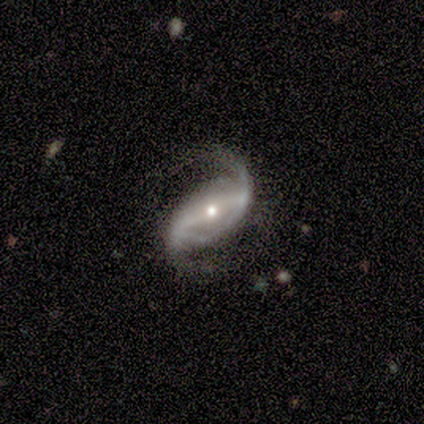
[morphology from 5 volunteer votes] This is clearly a featured or disk galaxy (100%). It is clearly not viewed edge-on (80%). Bar: likely strong (75%). Spiral arm pattern: clearly yes (100%). Spiral arm count: clearly 2 (100%). Spiral winding: likely loose (75%). Central bulge: likely small (75%). Merging: likely minor disturbance (60%).